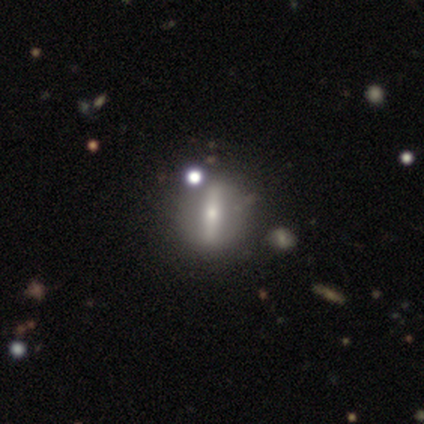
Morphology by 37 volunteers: A featured or disk galaxy (65%) with a strong bar (94%), no spiral arms (88%) and a small central bulge (75%). Merging: none (86%).